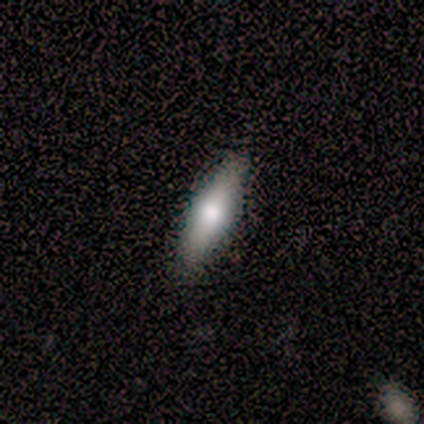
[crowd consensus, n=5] Smooth or featured: smooth — 60% (featured or disk — 40%)
How rounded: cigar-shaped — 67% (in between — 33%)
Merging: none — 100%